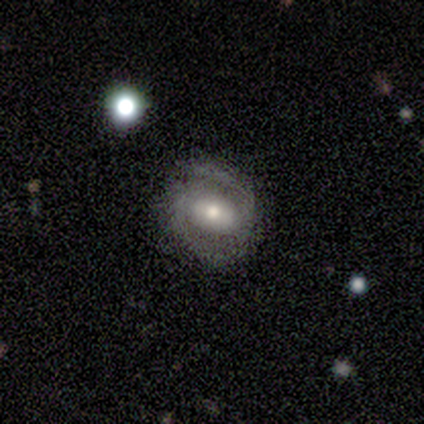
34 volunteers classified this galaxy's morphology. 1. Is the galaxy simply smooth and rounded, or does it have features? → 76% featured or disk, 15% star or artifact, 9% smooth.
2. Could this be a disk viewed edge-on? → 100% no, 0% yes.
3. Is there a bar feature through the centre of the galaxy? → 50% strong, 31% no, 19% weak.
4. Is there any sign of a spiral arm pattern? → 85% yes, 15% no.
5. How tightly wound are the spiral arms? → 50% medium, 45% tight, 5% loose.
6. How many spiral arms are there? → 91% 2, 5% more than 4, 5% can't tell, 0% 1, 0% 3, 0% 4.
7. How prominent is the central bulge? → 77% moderate, 19% small, 4% large, 0% dominant, 0% none.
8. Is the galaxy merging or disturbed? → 83% none, 14% minor disturbance, 3% major disturbance, 0% merger.